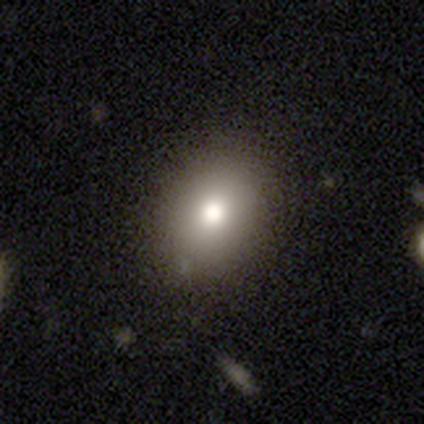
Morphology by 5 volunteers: smooth-or-featured: smooth: 80% | star or artifact: 20% | featured or disk: 0%
  how-rounded: in between: 75% | round: 25% | cigar-shaped: 0%
  merging: none: 100% | minor disturbance: 0% | major disturbance: 0% | merger: 0%